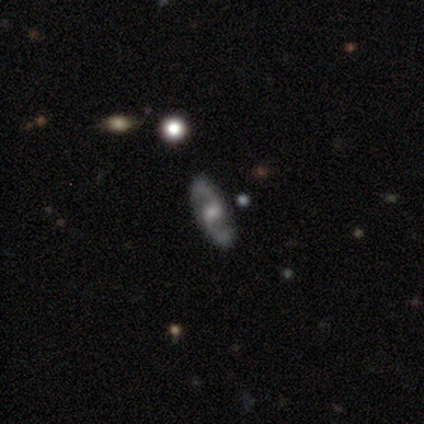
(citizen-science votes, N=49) Volunteers were most divided on "bar" (2-way tie): weak: 41%, no: 41%, strong: 18%. Remaining: spiral arm count — 2 (100%); spiral arms — yes (94%); edge-on disk — no (87%); merging — none (87%); smooth or featured — featured or disk (80%); spiral winding — loose (47%); bulge size — moderate (41%).